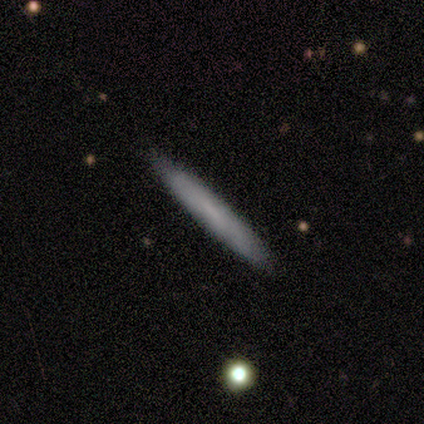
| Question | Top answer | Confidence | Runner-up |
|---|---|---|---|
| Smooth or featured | smooth | 60% | featured or disk (40%) |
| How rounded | cigar-shaped | 100% | — |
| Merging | none | 100% | — |